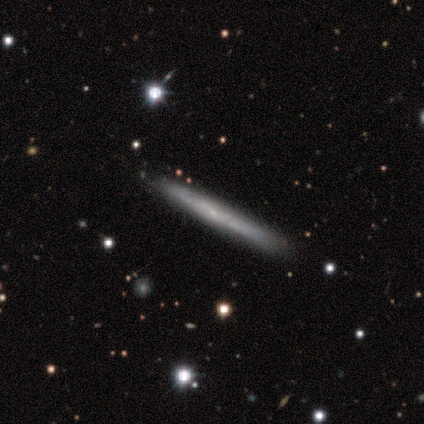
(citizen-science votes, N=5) Smooth or featured: featured or disk — 60% (smooth — 40%)
Edge-on disk: yes — 100%
Edge-on bulge: none — 100%
Merging: none — 80% (minor disturbance — 20%)